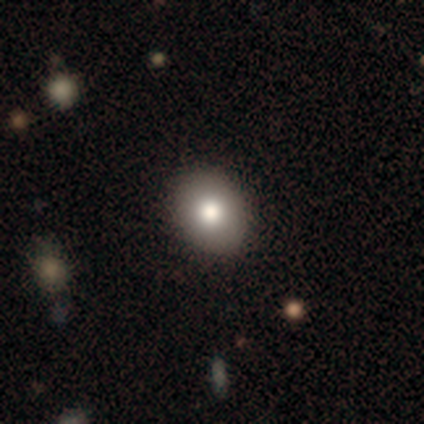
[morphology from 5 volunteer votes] Smooth or featured? smooth (80%)
How rounded? round (75%)
Merging? none (100%)